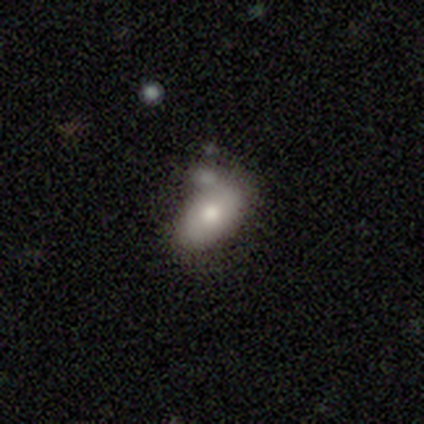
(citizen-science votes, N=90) Q: Smooth or featured?
A: smooth (70%); runner-up: featured or disk (27%)
Q: How rounded?
A: in between (94%); runner-up: round (6%)
Q: Merging?
A: none (47%); runner-up: merger (29%)